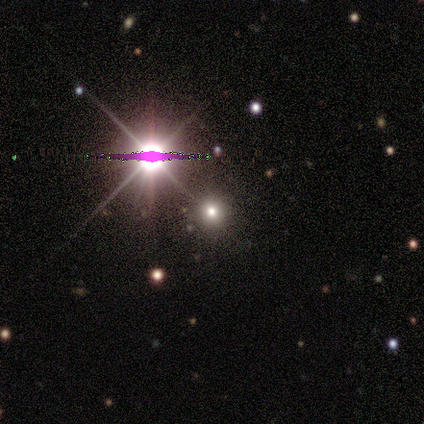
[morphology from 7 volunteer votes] Smooth or featured? star or artifact (71%)